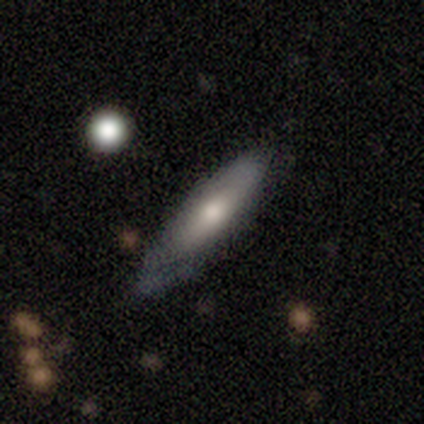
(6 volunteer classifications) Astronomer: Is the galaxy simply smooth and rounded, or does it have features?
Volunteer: smooth — 67%.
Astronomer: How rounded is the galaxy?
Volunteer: in between — 50%, tied with cigar-shaped at 50%.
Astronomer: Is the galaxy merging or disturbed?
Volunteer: none — 50%, tied with minor disturbance at 50%.